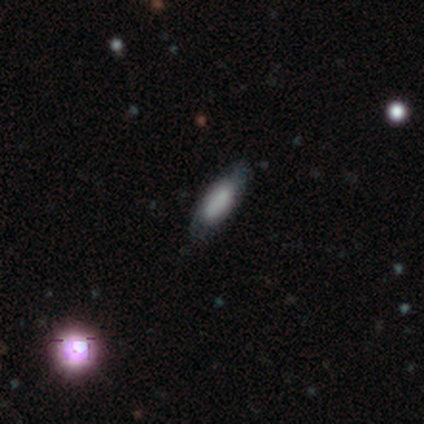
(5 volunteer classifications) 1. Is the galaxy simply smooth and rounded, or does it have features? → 40% smooth (tied), 40% featured or disk (tied), 20% star or artifact.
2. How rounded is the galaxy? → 100% in between, 0% round, 0% cigar-shaped.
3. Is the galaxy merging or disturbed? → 75% none, 25% minor disturbance, 0% major disturbance, 0% merger.